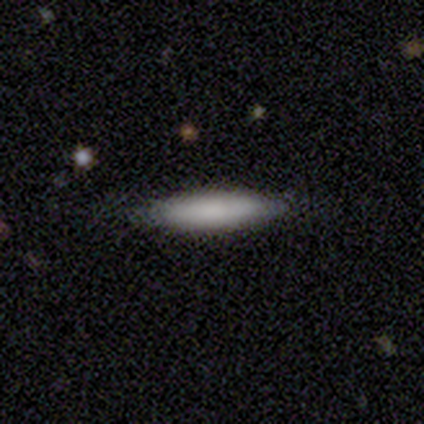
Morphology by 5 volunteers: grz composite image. It shows a smooth galaxy with no disk features (80%) that is cigar-shaped (75%). Merging: none (80%).